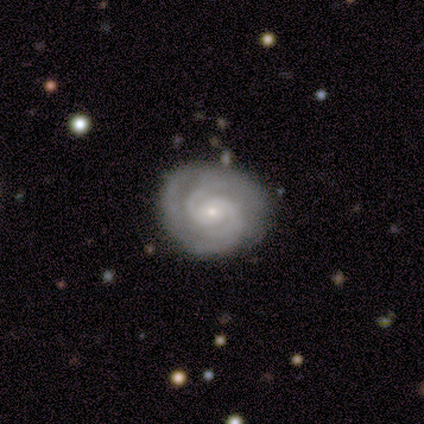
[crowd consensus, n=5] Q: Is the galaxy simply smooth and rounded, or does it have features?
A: featured or disk — 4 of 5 (80%).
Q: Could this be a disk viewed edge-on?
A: no — 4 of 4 (100%).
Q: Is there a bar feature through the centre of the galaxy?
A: weak — 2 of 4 (50%, tied with no).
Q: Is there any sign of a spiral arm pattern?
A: yes — 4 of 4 (100%).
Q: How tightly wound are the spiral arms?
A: tight — 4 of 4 (100%).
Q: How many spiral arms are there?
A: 2 — 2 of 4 (50%, tied with can't tell).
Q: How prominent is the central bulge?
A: small — 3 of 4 (75%).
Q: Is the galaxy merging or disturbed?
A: none — 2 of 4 (50%, tied with minor disturbance).